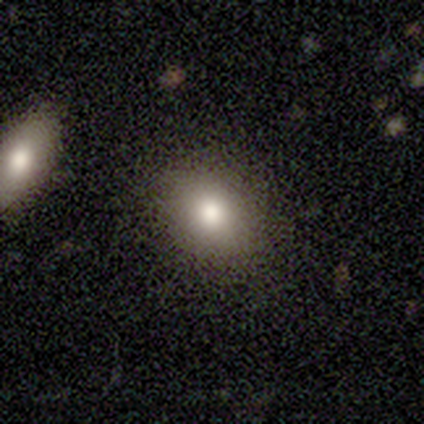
A smooth galaxy with no disk features (60%) that is round (67%).

Vote fractions:
- Smooth or featured? smooth: 60% / featured or disk: 20% / star or artifact: 20%
- How rounded? round: 67% / in between: 33% / cigar-shaped: 0%
- Merging? none: 100% / minor disturbance: 0% / major disturbance: 0% / merger: 0%